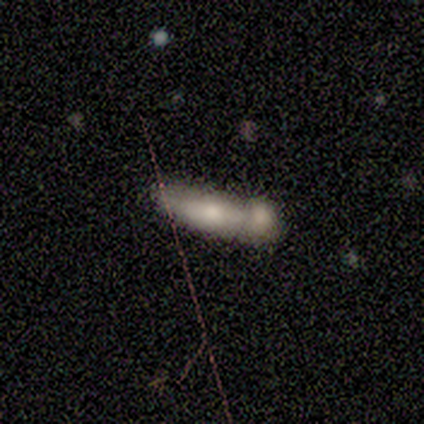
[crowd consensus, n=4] Smooth or featured? smooth (75%)
How rounded? in between (67%)
Merging? merger (67%)